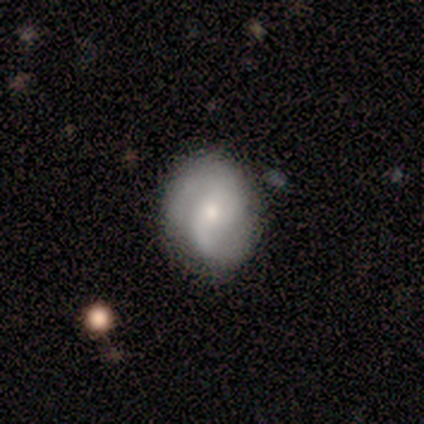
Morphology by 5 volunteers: Smooth or featured? 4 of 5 (80%) said featured or disk. Edge-on disk? 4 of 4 (100%) said no. Bar? 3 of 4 (75%) said weak. Spiral arms? 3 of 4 (75%) said yes. Spiral winding? 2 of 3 (67%) said tight. Spiral arm count? 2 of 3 (67%) said 2. Bulge size? 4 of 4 (100%) said small. Merging? 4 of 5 (80%) said none.